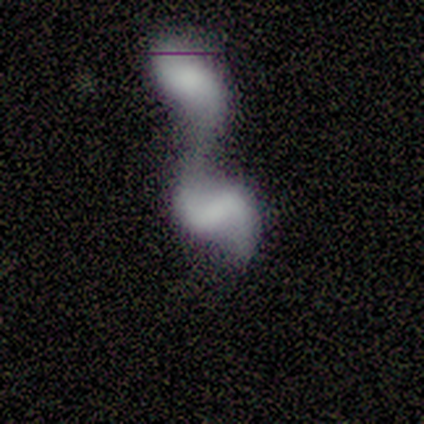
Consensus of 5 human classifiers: Q: Smooth or featured?
A: smooth (60%); runner-up: featured or disk (40%)
Q: How rounded?
A: in between (100%)
Q: Merging?
A: merger (100%)